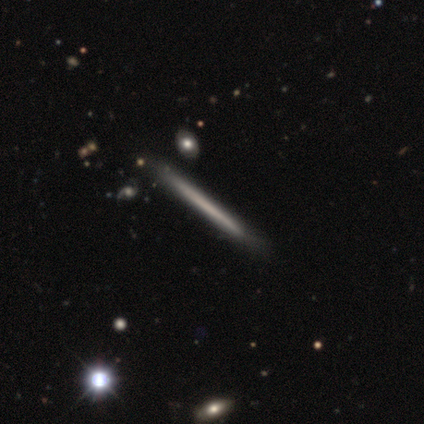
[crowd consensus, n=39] Q: Smooth or featured?
A: smooth (46%); tied with: featured or disk (46%)
Q: How rounded?
A: cigar-shaped (100%)
Q: Merging?
A: none (75%); runner-up: minor disturbance (22%)